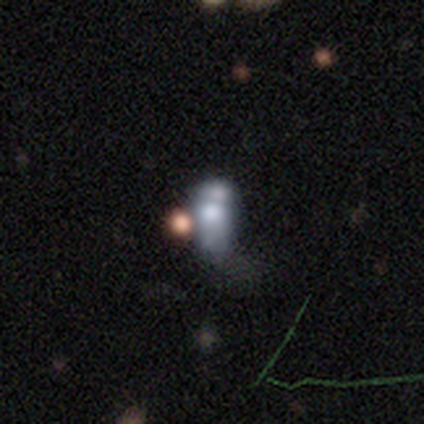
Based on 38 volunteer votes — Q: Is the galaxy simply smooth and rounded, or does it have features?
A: featured or disk — 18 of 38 (47%).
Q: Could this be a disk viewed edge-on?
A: no — 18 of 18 (100%).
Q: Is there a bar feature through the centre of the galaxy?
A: no — 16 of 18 (89%).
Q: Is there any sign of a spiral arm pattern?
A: no — 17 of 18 (94%).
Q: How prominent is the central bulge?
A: large — 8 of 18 (44%).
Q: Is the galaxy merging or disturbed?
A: merger — 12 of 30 (40%).